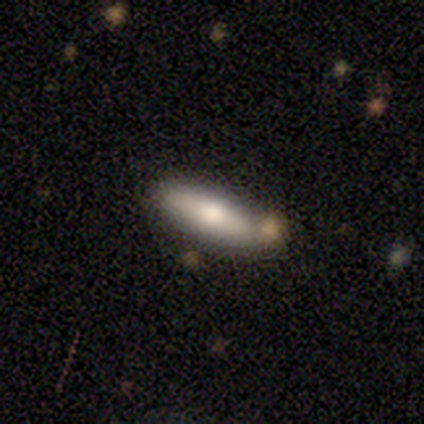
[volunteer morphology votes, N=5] A smooth galaxy with no disk features (60%) that is cigar-shaped (100%).

Vote fractions:
- Smooth or featured? smooth: 60% / featured or disk: 40% / star or artifact: 0%
- How rounded? cigar-shaped: 100% / round: 0% / in between: 0%
- Merging? none: 100% / minor disturbance: 0% / major disturbance: 0% / merger: 0%